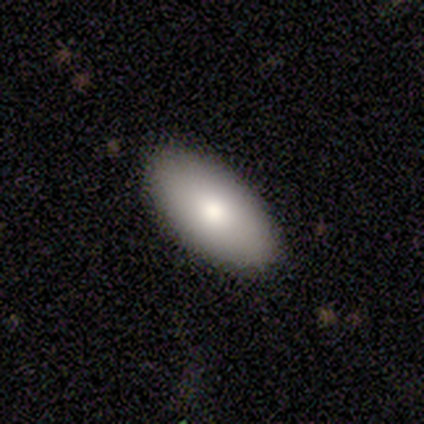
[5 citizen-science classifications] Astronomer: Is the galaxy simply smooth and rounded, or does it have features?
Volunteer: smooth — 80%.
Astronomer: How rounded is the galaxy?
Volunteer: in between — 75%.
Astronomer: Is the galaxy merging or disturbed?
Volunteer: none — 80%.